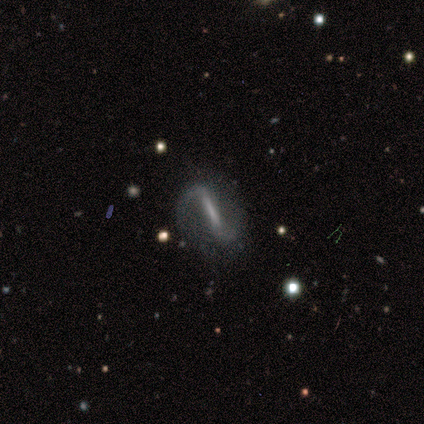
smooth-or-featured: featured or disk: 100% | smooth: 0% | star or artifact: 0%
  disk-edge-on: yes: 50% (tied) | no: 50% (tied)
    edge-on-bulge: boxy: 50% (tied) | none: 50% (tied) | rounded: 0%
  merging: none: 100% | minor disturbance: 0% | major disturbance: 0% | merger: 0%